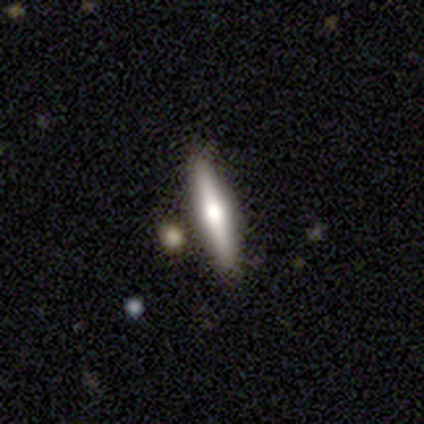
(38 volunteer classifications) Morphology: type=featured or disk (61%); edge-on=yes (91%); edge-on bulge=rounded (86%); merging=none (81%).